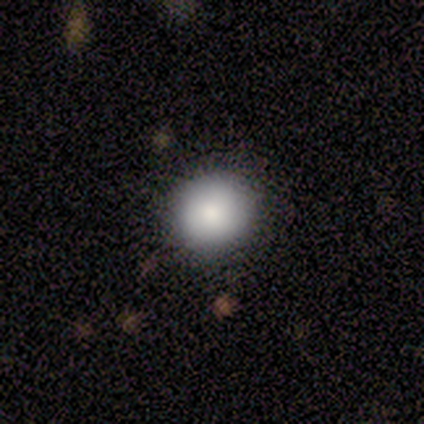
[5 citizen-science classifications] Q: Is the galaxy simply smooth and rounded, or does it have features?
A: smooth — 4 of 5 (80%).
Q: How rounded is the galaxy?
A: round — 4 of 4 (100%).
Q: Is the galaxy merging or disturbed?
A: none — 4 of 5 (80%).